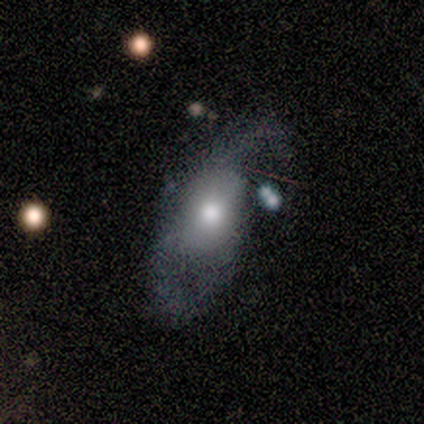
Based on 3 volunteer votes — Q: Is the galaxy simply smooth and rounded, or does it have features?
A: featured or disk — 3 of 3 (100%).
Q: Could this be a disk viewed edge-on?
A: no — 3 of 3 (100%).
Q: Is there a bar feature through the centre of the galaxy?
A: no — 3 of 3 (100%).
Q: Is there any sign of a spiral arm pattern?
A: yes — 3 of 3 (100%).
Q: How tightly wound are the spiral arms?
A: tight — 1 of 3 (33%, tied with medium and loose).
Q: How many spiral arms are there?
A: can't tell — 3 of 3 (100%).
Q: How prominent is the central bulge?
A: moderate — 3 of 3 (100%).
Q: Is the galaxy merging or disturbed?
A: major disturbance — 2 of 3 (67%).